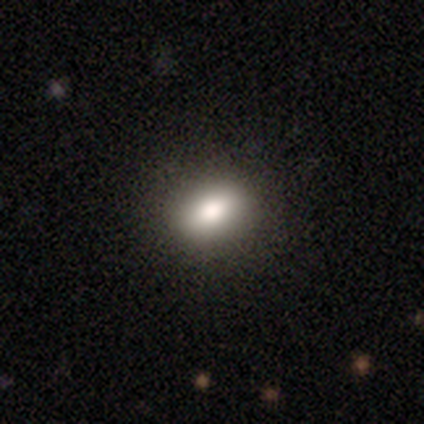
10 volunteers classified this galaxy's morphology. A smooth galaxy with no disk features (80%) that is in between round and cigar-shaped (88%).

Vote fractions:
- Smooth or featured? smooth: 80% / featured or disk: 20% / star or artifact: 0%
- How rounded? in between: 88% / round: 12% / cigar-shaped: 0%
- Merging? none: 80% / minor disturbance: 10% / major disturbance: 10% / merger: 0%